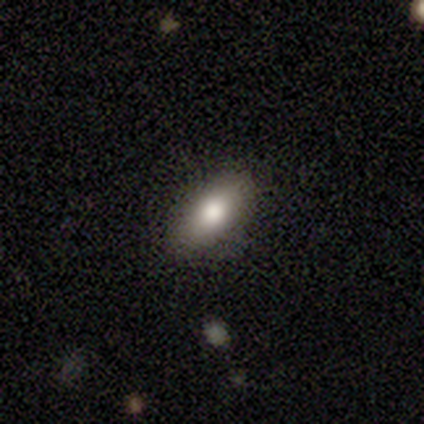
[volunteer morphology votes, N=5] This is clearly a smooth galaxy (80%). How rounded: clearly in between (100%). Merging: clearly none (80%).